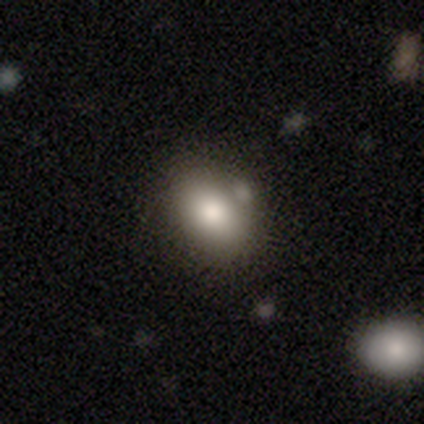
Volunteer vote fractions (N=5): Overall: smooth (80%). How rounded: in between (75%). Merging: none (100%).